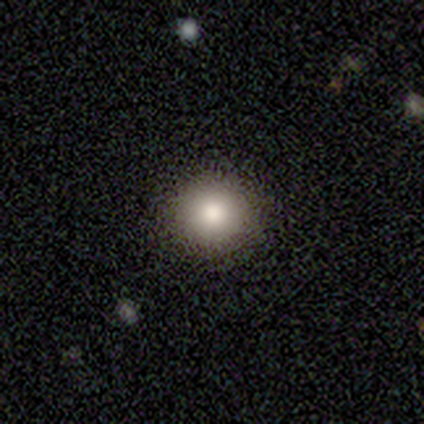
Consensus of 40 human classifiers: A smooth galaxy with no disk features (85%) that is round (94%).

Vote fractions:
- Smooth or featured? smooth: 85% / star or artifact: 10% / featured or disk: 5%
- How rounded? round: 94% / in between: 6% / cigar-shaped: 0%
- Merging? none: 100% / minor disturbance: 0% / major disturbance: 0% / merger: 0%